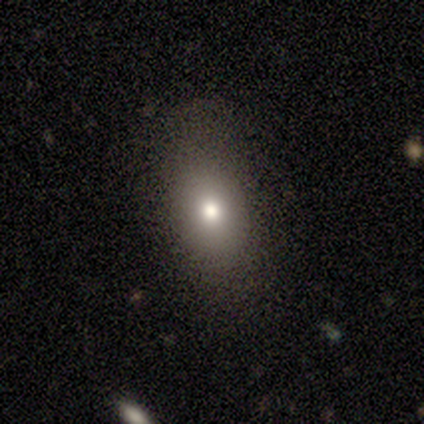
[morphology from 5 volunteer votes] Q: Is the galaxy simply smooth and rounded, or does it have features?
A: smooth — 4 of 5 (80%).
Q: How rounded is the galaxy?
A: round — 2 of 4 (50%, tied with in between).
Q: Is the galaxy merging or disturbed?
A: none — 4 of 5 (80%).